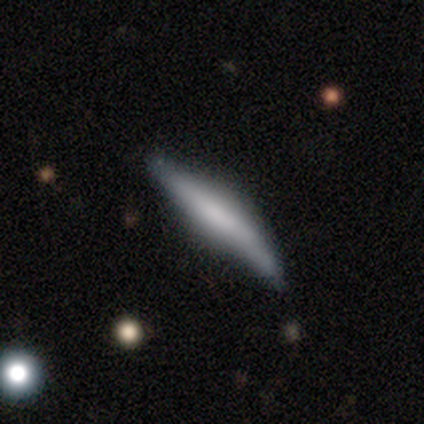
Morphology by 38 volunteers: type=smooth (53%); roundness=cigar-shaped (95%); merging=none (51%).